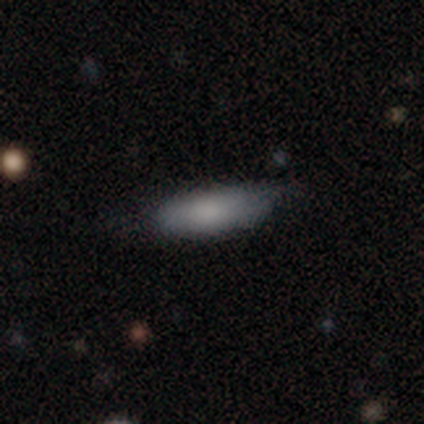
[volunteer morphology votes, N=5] Smooth or featured? 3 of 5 (60%) said smooth. How rounded? 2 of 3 (67%) said cigar-shaped. Merging? 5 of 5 (100%) said none.